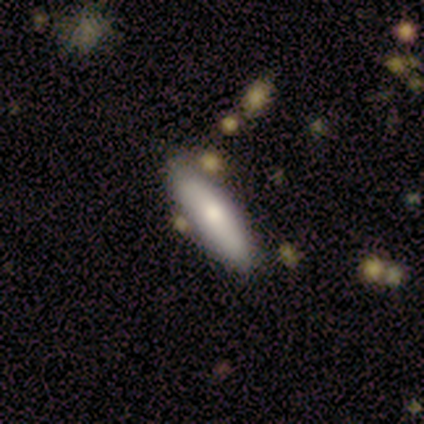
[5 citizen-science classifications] A smooth galaxy with no disk features (80%) that is in between round and cigar-shaped (50%, tied with cigar-shaped). Merging: none (50%, tied with minor disturbance).